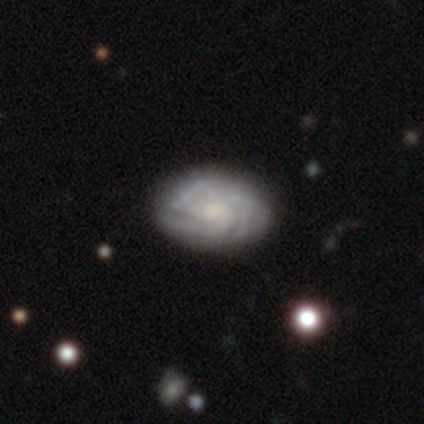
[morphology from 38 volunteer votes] type=featured or disk (79%); edge-on=no (100%); bar=no (70%); spiral arms=yes (90%); winding=tight (70%); arm count=3 (59%); bulge=small (57%); merging=none (79%).